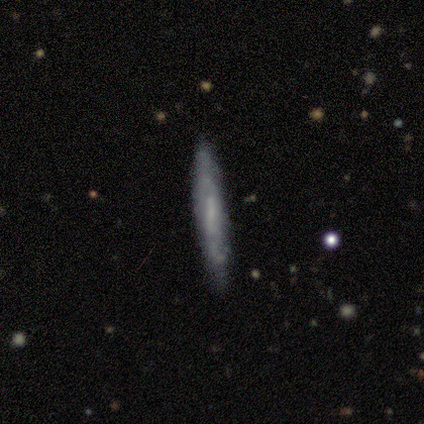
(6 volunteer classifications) A featured or disk galaxy (83%) with no bar (100%), 1 (33%, tied with 2 and can't tell) tight (67%) spiral arms (100%) and no central bulge (67%).

Vote fractions:
- Smooth or featured? featured or disk: 83% / smooth: 17% / star or artifact: 0%
- Edge-on disk? no: 60% / yes: 40%
- Bar? no: 100% / strong: 0% / weak: 0%
- Spiral arms? yes: 100% / no: 0%
- Spiral winding? tight: 67% / loose: 33% / medium: 0%
- Spiral arm count? 1: 33% (tied) / 2: 33% (tied) / can't tell: 33% (tied) / 3: 0% / 4: 0% / more than 4: 0%
- Bulge size? none: 67% / small: 33% / dominant: 0% / large: 0% / moderate: 0%
- Merging? none: 67% / minor disturbance: 33% / major disturbance: 0% / merger: 0%